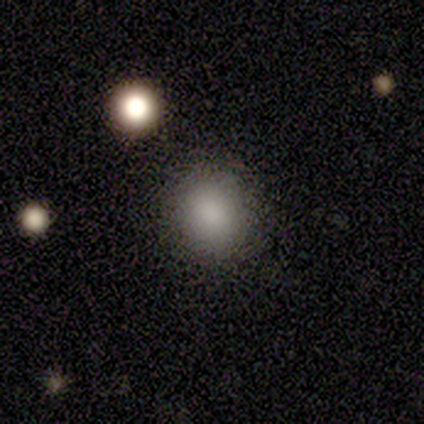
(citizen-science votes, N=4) This appears to be a smooth galaxy with no disk features (100%) that is round (75%). Merging: none (75%).